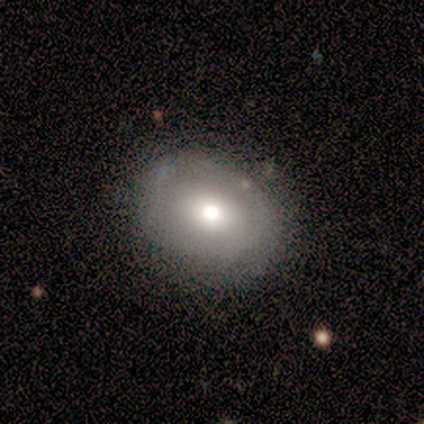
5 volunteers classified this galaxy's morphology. Overall: smooth (60%; featured or disk 40%). How rounded: round (67%; in between 33%). Merging: none (80%).